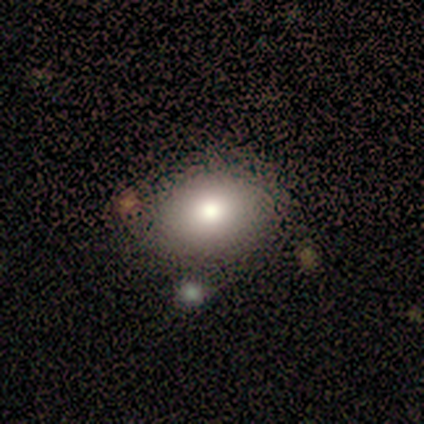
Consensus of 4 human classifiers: Smooth or featured?
  - featured or disk: 75% *
  - smooth: 25%
  - star or artifact: 0%
Edge-on disk?
  - no: 100% *
  - yes: 0%
Bar?
  - no: 100% *
  - strong: 0%
  - weak: 0%
Spiral arms?
  - no: 100% *
  - yes: 0%
Bulge size?
  - large: 67% *
  - moderate: 33%
  - dominant: 0%
  - small: 0%
  - none: 0%
Merging?
  - none: 75% *
  - minor disturbance: 25%
  - major disturbance: 0%
  - merger: 0%